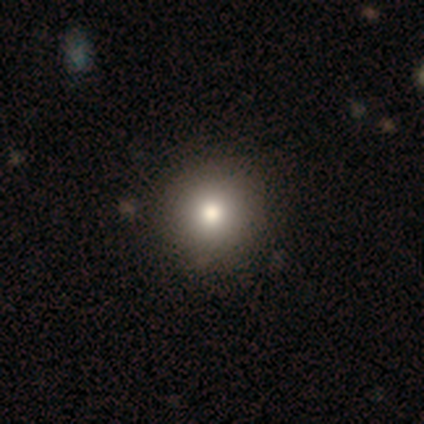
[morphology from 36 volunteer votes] This is likely a smooth galaxy (72%). How rounded: clearly round (96%). Merging: likely none (77%).